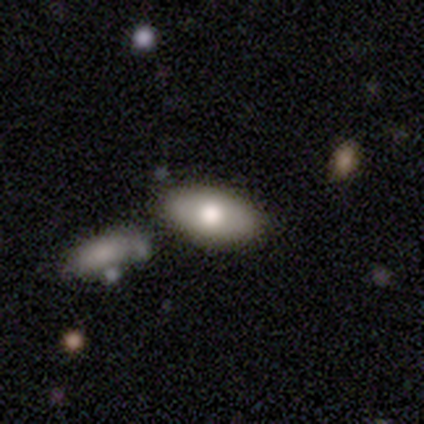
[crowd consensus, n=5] smooth 60%, featured or disk 40%, star or artifact 0%. Down the decision tree: how rounded — in between (100%); merging — none (80%).